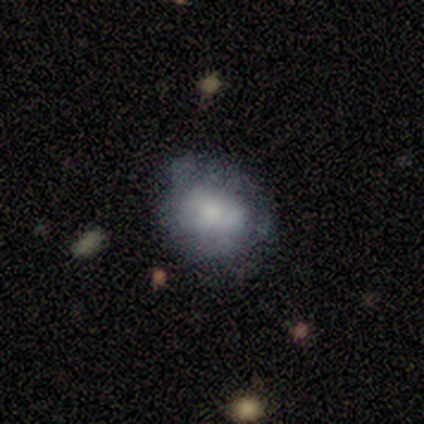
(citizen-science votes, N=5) Smooth or featured? smooth (60%)
How rounded? round (67%)
Merging? none (50%)